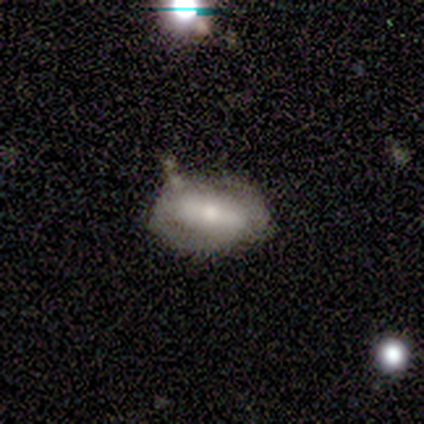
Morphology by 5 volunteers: smooth-or-featured: featured or disk: 80% | smooth: 20% | star or artifact: 0%
  disk-edge-on: no: 100% | yes: 0%
    bar: strong: 75% | weak: 25% | no: 0%
    has-spiral-arms: yes: 75% | no: 25%
      spiral-winding: loose: 67% | tight: 33% | medium: 0%
      spiral-arm-count: 2: 100% | 1: 0% | 3: 0% | 4: 0% | more than 4: 0% | can't tell: 0%
    bulge-size: moderate: 100% | dominant: 0% | large: 0% | small: 0% | none: 0%
  merging: none: 60% | minor disturbance: 20% | major disturbance: 20% | merger: 0%